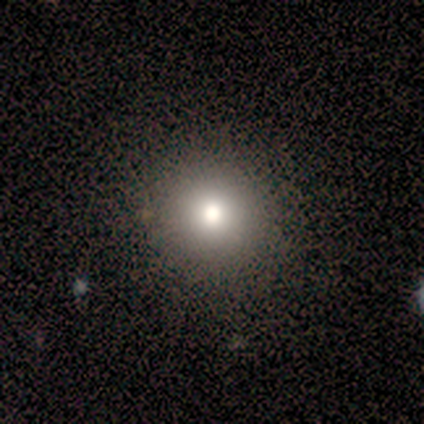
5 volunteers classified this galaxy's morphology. smooth 80%, featured or disk 20%, star or artifact 0%. Down the decision tree: how rounded — round (100%); merging — none (100%).